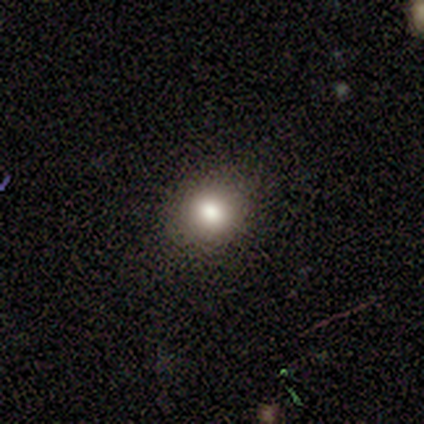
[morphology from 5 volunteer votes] Smooth or featured? smooth (60%)
How rounded? round (67%)
Merging? none (50%)